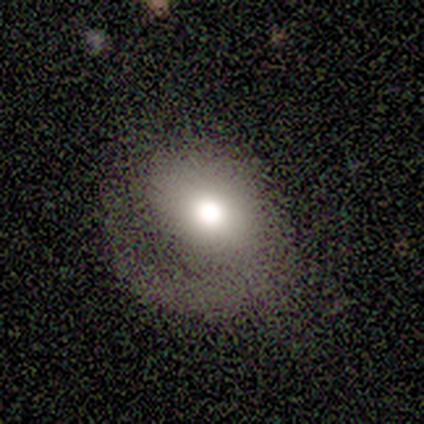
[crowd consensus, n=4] A featured or disk galaxy (75%) with no bar (100%), 1 (100%) tight (50%, tied with medium) spiral arms (67%) and a large central bulge (67%). Merging: none (50%).